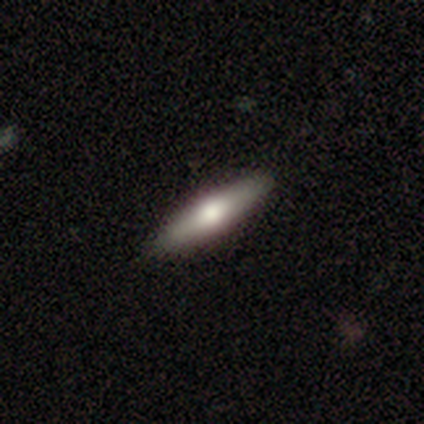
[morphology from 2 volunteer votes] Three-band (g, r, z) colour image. It shows a smooth galaxy with no disk features (100%) that is cigar-shaped (100%). Merging: none (50%, tied with major disturbance).